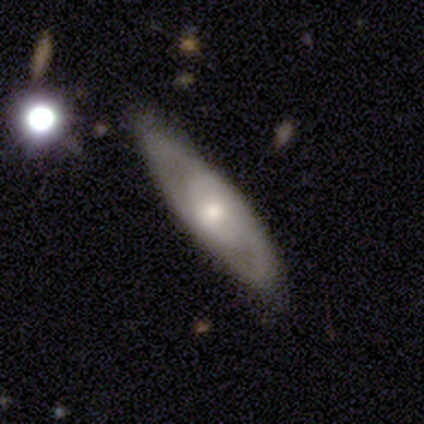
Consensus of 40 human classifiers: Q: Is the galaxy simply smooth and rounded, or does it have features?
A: featured or disk — 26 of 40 (65%).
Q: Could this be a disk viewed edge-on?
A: no — 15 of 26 (58%).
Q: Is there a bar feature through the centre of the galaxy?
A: no — 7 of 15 (47%).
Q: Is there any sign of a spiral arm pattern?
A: yes — 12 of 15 (80%).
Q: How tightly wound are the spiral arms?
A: medium — 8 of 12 (67%).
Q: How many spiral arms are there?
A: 2 — 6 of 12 (50%).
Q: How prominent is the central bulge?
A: moderate — 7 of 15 (47%).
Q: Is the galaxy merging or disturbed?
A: none — 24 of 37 (65%).